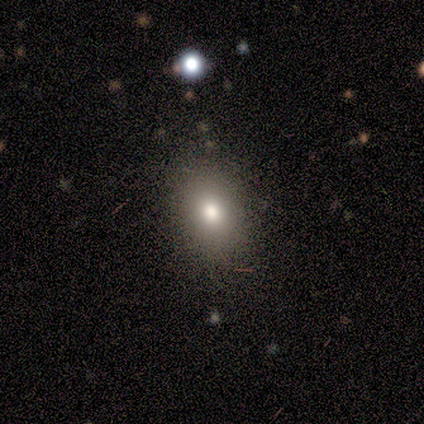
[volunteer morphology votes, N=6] Smooth or featured? smooth (100%)
How rounded? in between (100%)
Merging? none (83%)